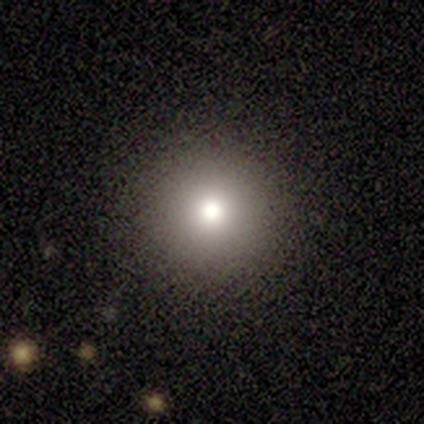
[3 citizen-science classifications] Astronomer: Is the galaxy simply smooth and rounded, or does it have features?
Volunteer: smooth — 67%.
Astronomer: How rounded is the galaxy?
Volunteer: round — 100%.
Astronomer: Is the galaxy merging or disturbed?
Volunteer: none — 100%.